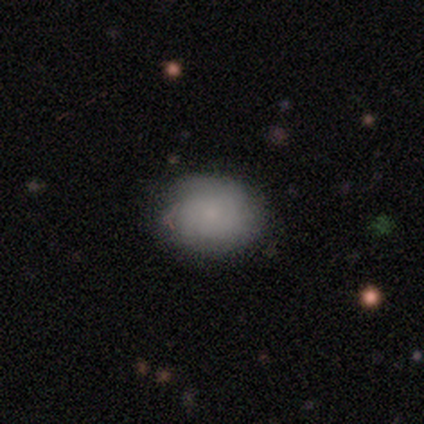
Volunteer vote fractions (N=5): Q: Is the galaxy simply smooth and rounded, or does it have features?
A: smooth — 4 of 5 (80%).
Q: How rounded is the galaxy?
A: round — 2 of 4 (50%, tied with in between).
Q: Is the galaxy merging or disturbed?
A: none — 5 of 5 (100%).